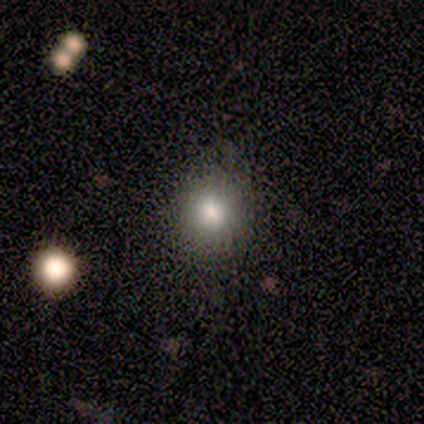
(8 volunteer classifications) Smooth or featured: smooth — 62% (star or artifact — 38%)
How rounded: round — 80% (in between — 20%)
Merging: none — 60% (minor disturbance — 20%)